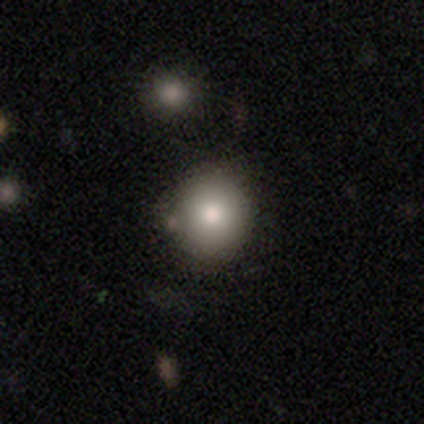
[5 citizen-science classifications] Volunteers were most divided on "merging": none: 60%, minor disturbance: 40%, major disturbance: 0%, merger: 0%. More confident: smooth or featured — smooth (100%); how rounded — round (80%).